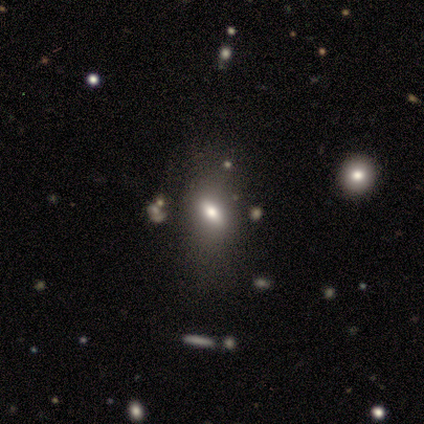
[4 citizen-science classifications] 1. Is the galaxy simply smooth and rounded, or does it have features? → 50% smooth (tied), 50% featured or disk (tied), 0% star or artifact.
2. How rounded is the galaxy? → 50% in between (tied), 50% cigar-shaped (tied), 0% round.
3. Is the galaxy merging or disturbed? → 100% none, 0% minor disturbance, 0% major disturbance, 0% merger.